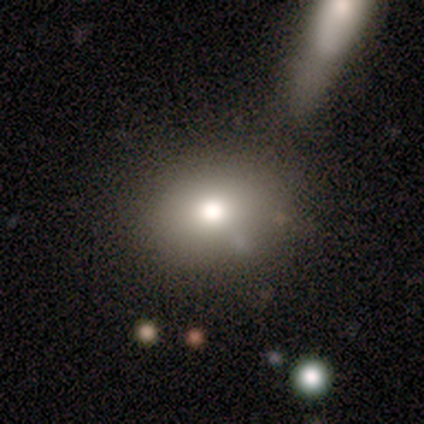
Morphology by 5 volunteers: Smooth or featured?
  - smooth: 60% *
  - featured or disk: 20%
  - star or artifact: 20%
How rounded?
  - in between: 67% *
  - round: 33%
  - cigar-shaped: 0%
Merging?
  - merger: 50% *
  - none: 25%
  - minor disturbance: 25%
  - major disturbance: 0%